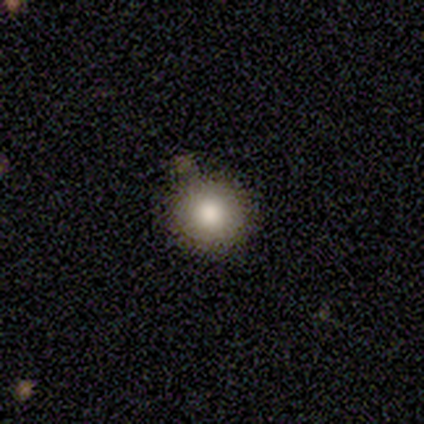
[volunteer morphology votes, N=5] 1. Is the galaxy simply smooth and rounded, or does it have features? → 80% smooth, 20% star or artifact, 0% featured or disk.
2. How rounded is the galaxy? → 75% round, 25% in between, 0% cigar-shaped.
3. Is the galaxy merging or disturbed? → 50% none, 25% minor disturbance, 25% merger, 0% major disturbance.